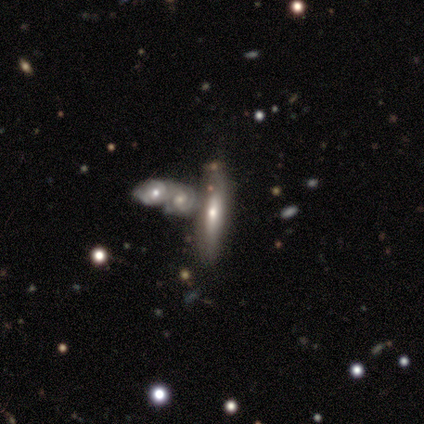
smooth_or_featured: featured or disk (p=0.58) [alt: smooth p=0.37]
disk_edge_on: no (p=0.68) [alt: yes p=0.32]
bar: no (p=0.71) [alt: weak p=0.18]
has_spiral_arms: no (p=0.53) [alt: yes p=0.47]
bulge_size: small (p=0.53) [alt: moderate p=0.41]
merging: none (p=0.46) [alt: merger p=0.32]